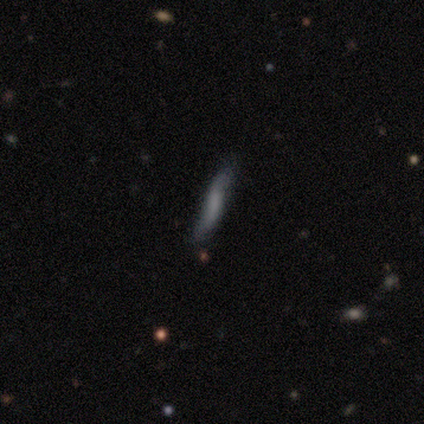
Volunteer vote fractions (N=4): Smooth or featured? smooth (50%)
How rounded? cigar-shaped (100%)
Merging? none (100%)